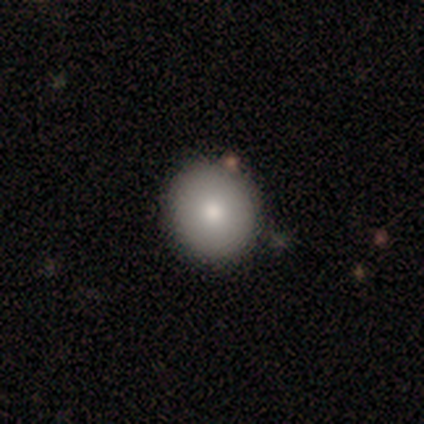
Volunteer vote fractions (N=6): A smooth galaxy with no disk features (100%) that is round (83%).

Vote fractions:
- Smooth or featured? smooth: 100% / featured or disk: 0% / star or artifact: 0%
- How rounded? round: 83% / in between: 17% / cigar-shaped: 0%
- Merging? none: 67% / minor disturbance: 33% / major disturbance: 0% / merger: 0%